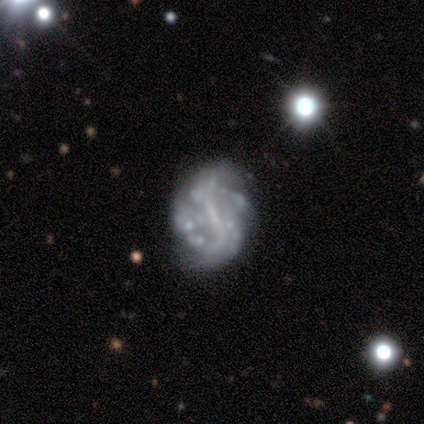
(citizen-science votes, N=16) Smooth or featured?
  - featured or disk: 81% *
  - smooth: 12%
  - star or artifact: 6%
Edge-on disk?
  - no: 100% *
  - yes: 0%
Bar?
  - strong: 46% *
  - weak: 31%
  - no: 23%
Spiral arms?
  - yes: 62% *
  - no: 38%
Spiral winding?
  - medium: 38% * (tied)
  - loose: 38% * (tied)
  - tight: 25%
Spiral arm count?
  - can't tell: 38% *
  - 2: 25%
  - more than 4: 25%
  - 1: 12%
  - 3: 0%
  - 4: 0%
Bulge size?
  - small: 46% * (tied)
  - none: 46% * (tied)
  - moderate: 8%
  - dominant: 0%
  - large: 0%
Merging?
  - none: 53% *
  - major disturbance: 33%
  - minor disturbance: 13%
  - merger: 0%